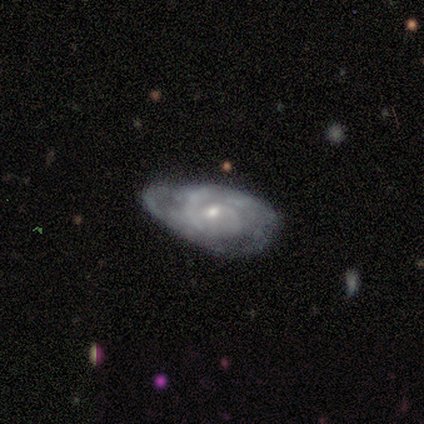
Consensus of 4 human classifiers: featured or disk 75%, smooth 25%, star or artifact 0%. Down the decision tree: edge-on disk — no (100%); bar — no (67%); spiral arms — yes (100%); spiral arm count — 1 (33%, tied with 2 and can't tell); spiral winding — tight (67%); bulge size — moderate (67%); merging — none (50%).